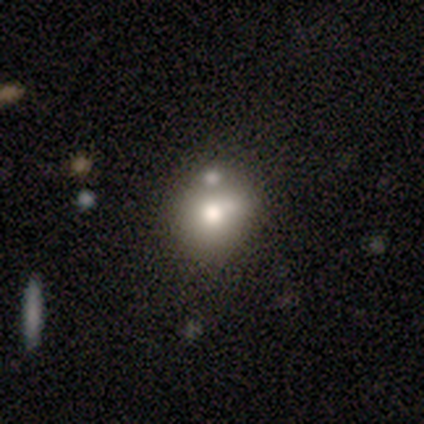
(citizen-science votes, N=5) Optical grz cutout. It shows a smooth galaxy with no disk features (80%) that is round (75%). Merging: none (40%, tied with minor disturbance).